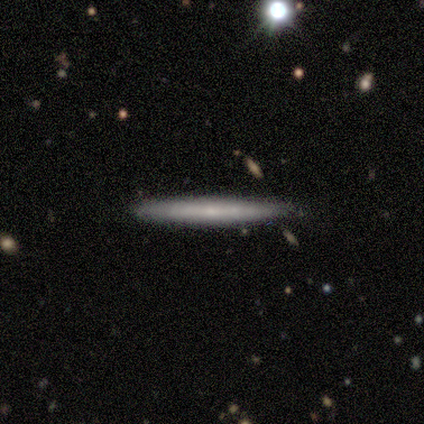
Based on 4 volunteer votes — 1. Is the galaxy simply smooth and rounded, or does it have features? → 50% smooth (tied), 50% featured or disk (tied), 0% star or artifact.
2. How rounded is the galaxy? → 100% cigar-shaped, 0% round, 0% in between.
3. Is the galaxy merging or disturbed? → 50% none, 25% minor disturbance, 25% merger, 0% major disturbance.